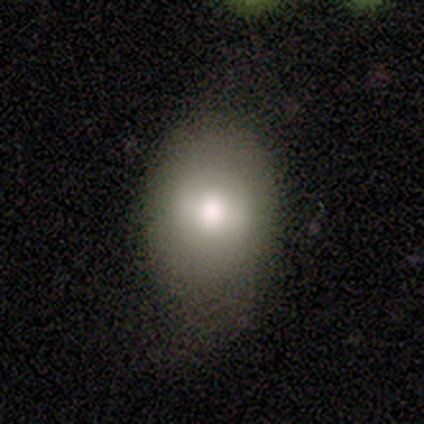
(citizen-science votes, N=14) This is likely a smooth galaxy (79%). How rounded: clearly in between (82%). Merging: possibly minor disturbance (50%).